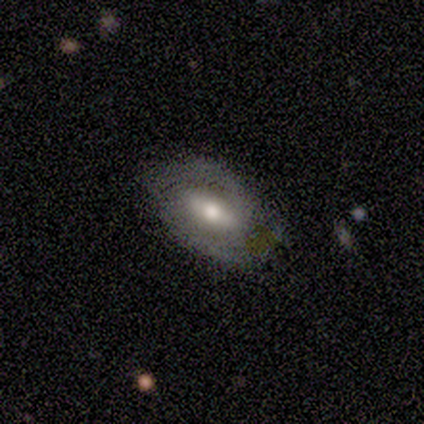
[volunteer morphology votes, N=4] smooth_or_featured: featured or disk (p=0.75) [alt: star or artifact p=0.25]
disk_edge_on: no (p=1.00)
bar: weak (p=1.00)
has_spiral_arms: yes (p=0.67) [alt: no p=0.33]
spiral_winding: tight (p=0.50) [tied with: medium p=0.50]
spiral_arm_count: 2 (p=1.00)
bulge_size: small (p=0.67) [alt: moderate p=0.33]
merging: none (p=1.00)